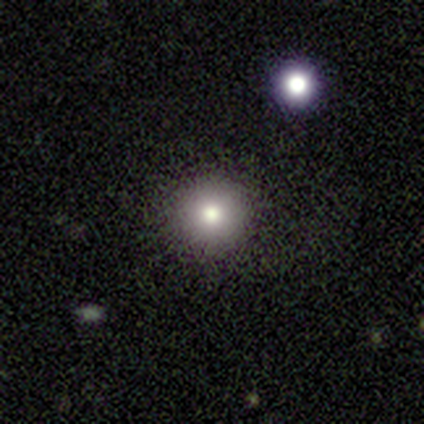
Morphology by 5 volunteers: Volunteers were most divided on "smooth or featured": smooth: 80%, star or artifact: 20%, featured or disk: 0%. More confident: how rounded — round (100%); merging — none (100%).